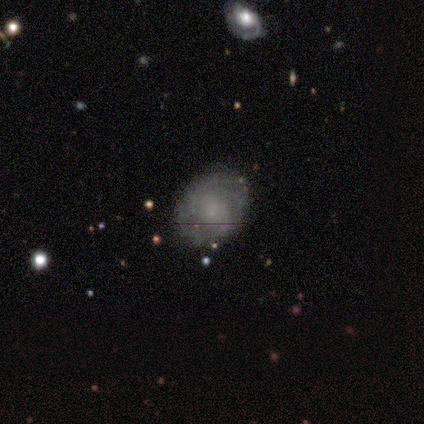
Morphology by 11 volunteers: Overall: featured or disk (73%). Edge-on disk: no (100%). Bar: no (75%). Spiral arms: yes (75%). Spiral arm count: can't tell (67%). Spiral winding: tight (50%, tied with medium). Bulge size: small (62%; none 25%). Merging: none (70%).